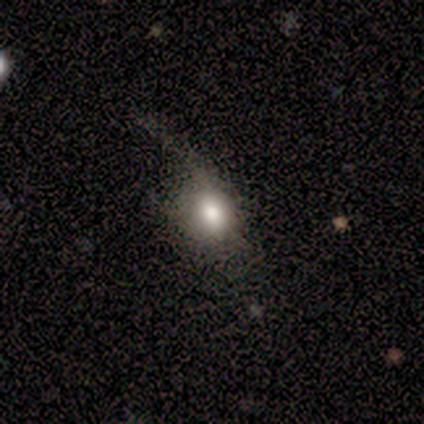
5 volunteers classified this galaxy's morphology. Overall: smooth (60%; featured or disk 20%). How rounded: in between (67%; round 33%). Merging: major disturbance (50%; none 25%).